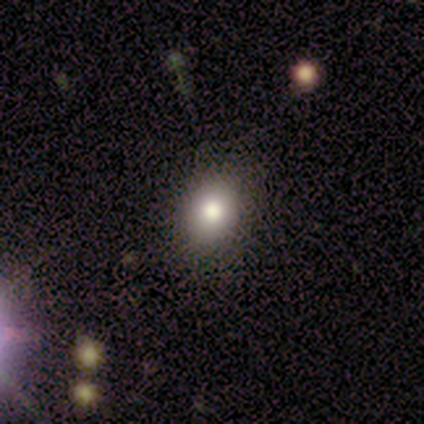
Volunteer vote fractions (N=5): Morphology: type=smooth (80%); roundness=in between (75%); merging=none (100%).